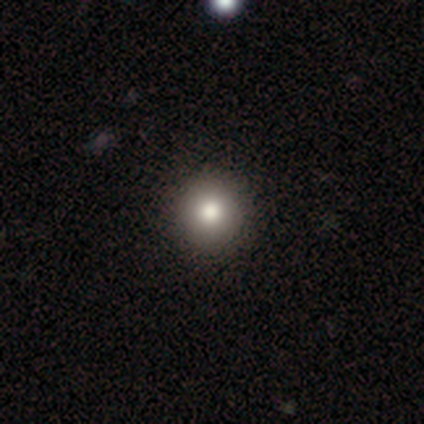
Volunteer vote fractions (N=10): A smooth galaxy with no disk features (90%) that is round (89%).

Vote fractions:
- Smooth or featured? smooth: 90% / featured or disk: 10% / star or artifact: 0%
- How rounded? round: 89% / in between: 11% / cigar-shaped: 0%
- Merging? none: 90% / minor disturbance: 10% / major disturbance: 0% / merger: 0%